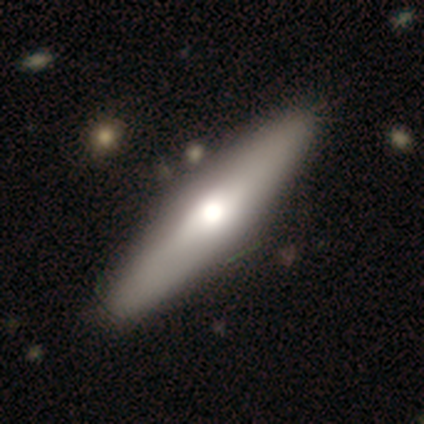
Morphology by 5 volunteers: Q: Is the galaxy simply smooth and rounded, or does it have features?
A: featured or disk — 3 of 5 (60%).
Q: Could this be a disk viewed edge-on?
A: yes — 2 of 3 (67%).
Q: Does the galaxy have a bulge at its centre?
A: rounded — 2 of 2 (100%).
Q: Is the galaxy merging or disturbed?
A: none — 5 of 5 (100%).